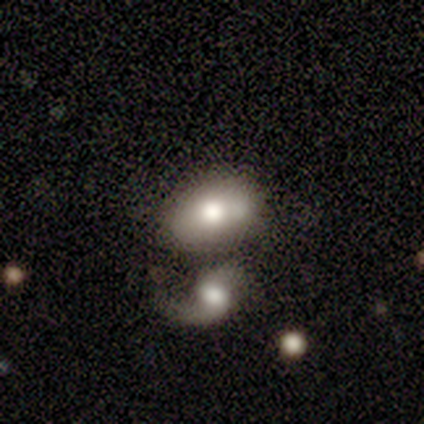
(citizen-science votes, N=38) smooth-or-featured: smooth: 61% | featured or disk: 32% | star or artifact: 8%
  how-rounded: in between: 78% | round: 22% | cigar-shaped: 0%
  merging: none: 46% | merger: 34% | minor disturbance: 17% | major disturbance: 3%